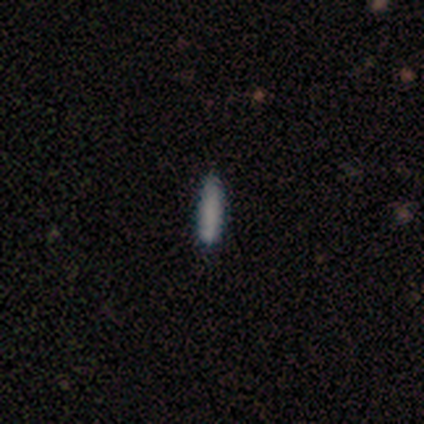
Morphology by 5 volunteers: smooth-or-featured: smooth: 80% | featured or disk: 20% | star or artifact: 0%
  how-rounded: cigar-shaped: 75% | in between: 25% | round: 0%
  merging: minor disturbance: 60% | none: 40% | major disturbance: 0% | merger: 0%